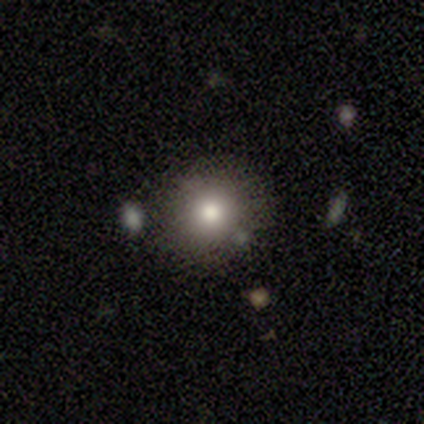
smooth 72%, star or artifact 20%, featured or disk 8%. Down the decision tree: how rounded — round (90%); merging — none (81%).